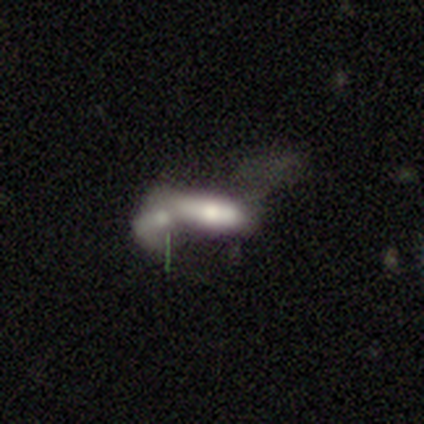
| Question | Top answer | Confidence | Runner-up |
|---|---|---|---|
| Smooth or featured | featured or disk | 80% | smooth (20%) |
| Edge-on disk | yes | 50% | tied: no (50%) |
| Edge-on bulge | boxy | 100% | — |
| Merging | merger | 100% | — |